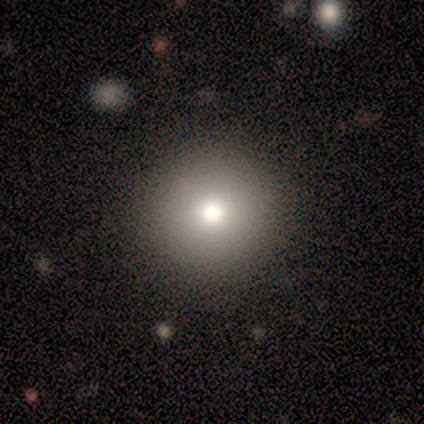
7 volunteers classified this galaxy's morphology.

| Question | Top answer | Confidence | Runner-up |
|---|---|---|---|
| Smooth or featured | smooth | 100% | — |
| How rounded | round | 100% | — |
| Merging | none | 86% | minor disturbance (14%) |